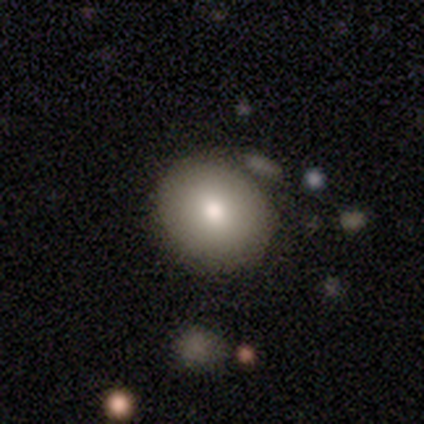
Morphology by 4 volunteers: Smooth or featured? smooth (100%)
How rounded? round (75%)
Merging? none (100%)